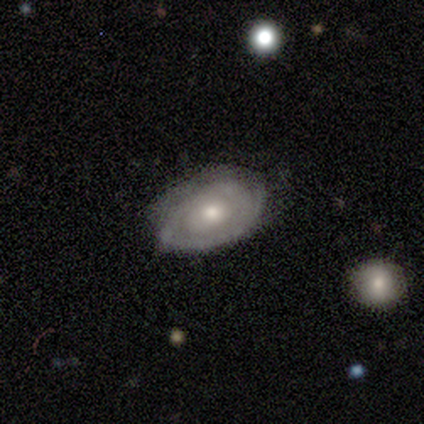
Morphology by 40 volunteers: smooth_or_featured: featured or disk (p=0.72) [alt: smooth p=0.23]
disk_edge_on: no (p=0.93) [alt: yes p=0.07]
bar: no (p=0.81) [alt: weak p=0.11]
has_spiral_arms: yes (p=0.85) [alt: no p=0.15]
spiral_winding: tight (p=0.87) [alt: medium p=0.09]
spiral_arm_count: can't tell (p=0.61) [alt: 2 p=0.17]
bulge_size: moderate (p=0.56) [alt: small p=0.37]
merging: none (p=0.82) [alt: minor disturbance p=0.18]